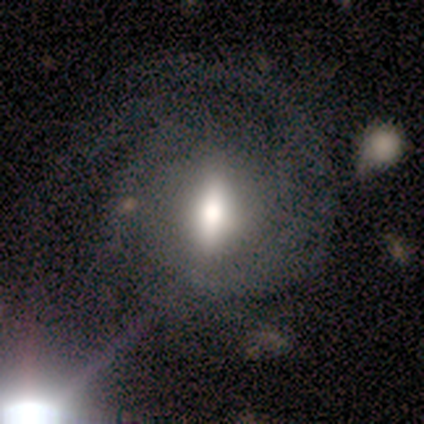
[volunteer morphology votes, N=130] smooth_or_featured: featured or disk (p=0.72) [alt: smooth p=0.18]
disk_edge_on: no (p=0.86) [alt: yes p=0.14]
bar: strong (p=0.53) [alt: weak p=0.35]
has_spiral_arms: yes (p=0.89) [alt: no p=0.11]
spiral_winding: tight (p=0.45) [alt: medium p=0.44]
spiral_arm_count: can't tell (p=0.35) [alt: 2 p=0.25]
bulge_size: moderate (p=0.54) [alt: large p=0.31]
merging: none (p=0.48) [alt: major disturbance p=0.31]